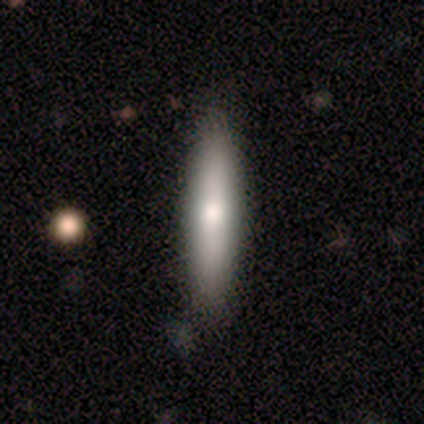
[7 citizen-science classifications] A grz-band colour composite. It shows a smooth galaxy with no disk features (86%) that is cigar-shaped (83%). Merging: none (71%).